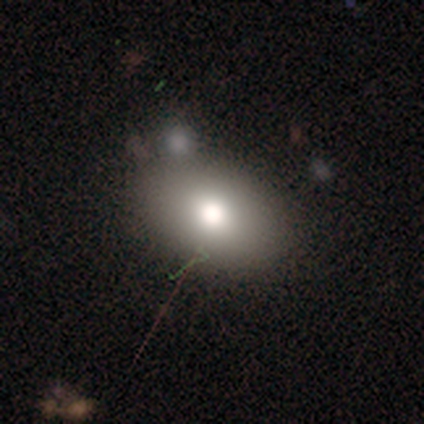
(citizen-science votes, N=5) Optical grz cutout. It shows a smooth galaxy with no disk features (80%) that is in between round and cigar-shaped (75%). Merging: none (75%).